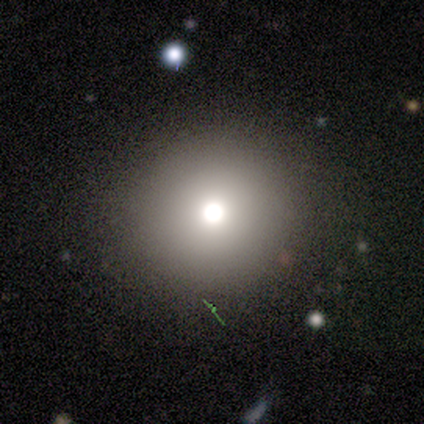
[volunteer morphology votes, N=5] Overall: smooth (80%). How rounded: round (100%). Merging: none (100%).